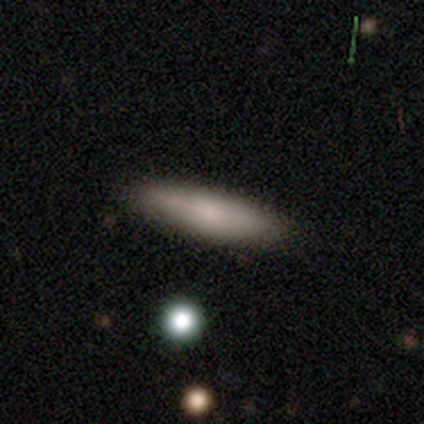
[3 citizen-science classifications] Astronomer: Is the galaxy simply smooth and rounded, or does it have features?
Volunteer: smooth — 67%.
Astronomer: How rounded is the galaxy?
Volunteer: in between — 50%, tied with cigar-shaped at 50%.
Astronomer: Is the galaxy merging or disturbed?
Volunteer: none — 100%.